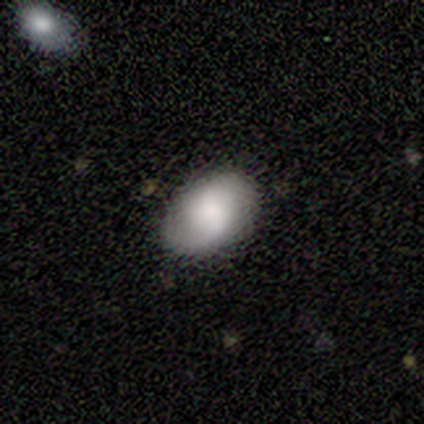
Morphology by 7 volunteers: Smooth or featured?
  - featured or disk: 71% *
  - smooth: 29%
  - star or artifact: 0%
Edge-on disk?
  - no: 100% *
  - yes: 0%
Bar?
  - weak: 60% *
  - strong: 20%
  - no: 20%
Spiral arms?
  - yes: 80% *
  - no: 20%
Spiral winding?
  - medium: 75% *
  - loose: 25%
  - tight: 0%
Spiral arm count?
  - 2: 75% *
  - 1: 25%
  - 3: 0%
  - 4: 0%
  - more than 4: 0%
  - can't tell: 0%
Bulge size?
  - small: 40% *
  - large: 20%
  - moderate: 20%
  - none: 20%
  - dominant: 0%
Merging?
  - none: 100% *
  - minor disturbance: 0%
  - major disturbance: 0%
  - merger: 0%